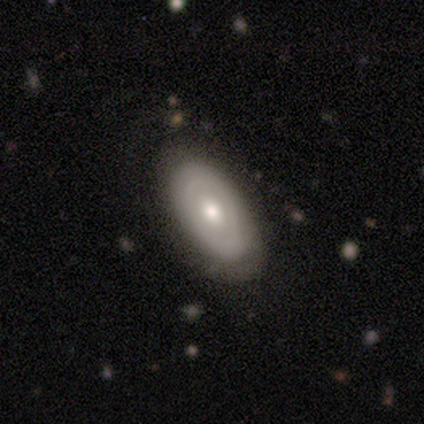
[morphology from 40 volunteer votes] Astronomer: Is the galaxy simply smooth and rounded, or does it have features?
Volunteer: featured or disk — 62%.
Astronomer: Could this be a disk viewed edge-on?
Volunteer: no — 92%.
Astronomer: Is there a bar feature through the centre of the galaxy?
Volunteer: no — 83%.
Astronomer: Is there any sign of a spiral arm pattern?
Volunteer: no — 70%.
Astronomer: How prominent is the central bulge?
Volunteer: moderate — 74%.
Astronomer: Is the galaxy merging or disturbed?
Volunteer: none — 52%.